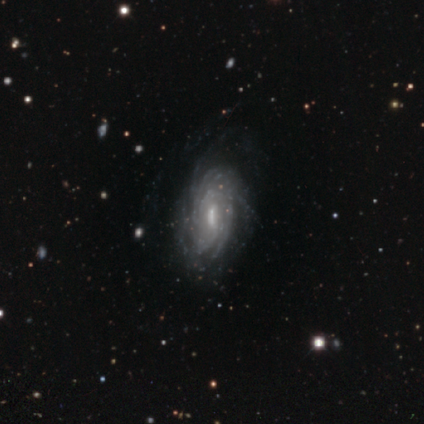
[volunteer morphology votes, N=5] A featured or disk galaxy (80%) with a weak bar (50%), more than 4 (50%, tied with can't tell) tight (100%) spiral arms (100%) and a moderate central bulge (75%).

Vote fractions:
- Smooth or featured? featured or disk: 80% / smooth: 20% / star or artifact: 0%
- Edge-on disk? no: 100% / yes: 0%
- Bar? weak: 50% / strong: 25% / no: 25%
- Spiral arms? yes: 100% / no: 0%
- Spiral winding? tight: 100% / medium: 0% / loose: 0%
- Spiral arm count? more than 4: 50% (tied) / can't tell: 50% (tied) / 1: 0% / 2: 0% / 3: 0% / 4: 0%
- Bulge size? moderate: 75% / small: 25% / dominant: 0% / large: 0% / none: 0%
- Merging? none: 100% / minor disturbance: 0% / major disturbance: 0% / merger: 0%